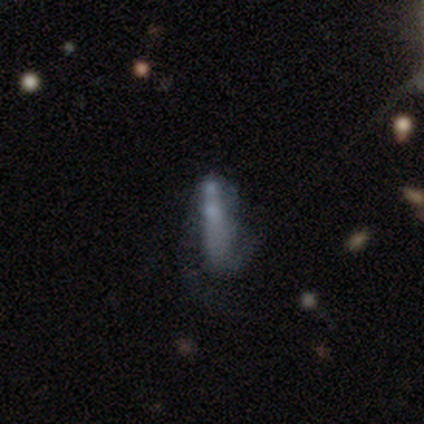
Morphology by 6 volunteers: Overall: featured or disk (50%; smooth 33%). Edge-on disk: no (100%). Bar: strong (67%; no 33%). Spiral arms: yes (100%). Spiral arm count: 2 (67%; 1 33%). Spiral winding: medium (67%; loose 33%). Bulge size: none (100%). Merging: merger (60%; minor disturbance 40%).